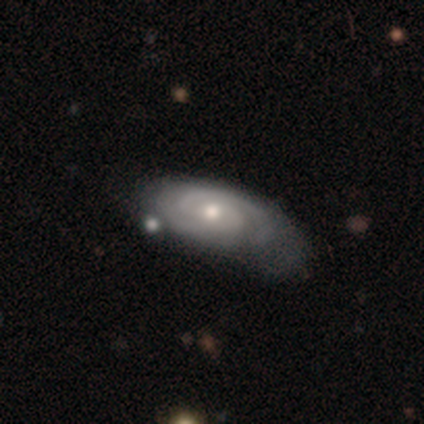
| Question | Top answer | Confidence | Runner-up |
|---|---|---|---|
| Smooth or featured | featured or disk | 87% | smooth (13%) |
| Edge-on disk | no | 94% | yes (6%) |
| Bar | no | 59% | weak (31%) |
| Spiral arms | yes | 100% | — |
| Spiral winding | tight | 75% | medium (25%) |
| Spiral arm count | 2 | 72% | can't tell (25%) |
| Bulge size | moderate | 56% | small (41%) |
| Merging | none | 41% | tied: minor disturbance (41%) |